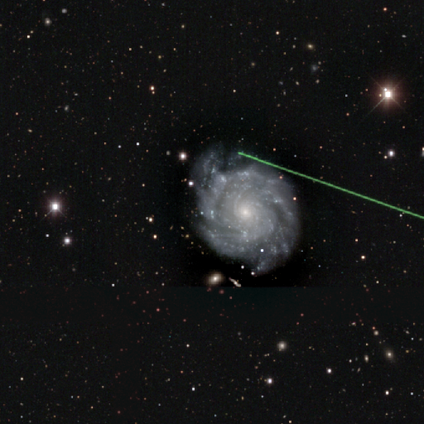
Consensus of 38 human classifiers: featured or disk 92%, smooth 8%, star or artifact 0%. Down the decision tree: edge-on disk — no (100%); bar — no (74%); spiral arms — yes (94%); spiral arm count — 3 (27%, tied with can't tell); spiral winding — tight (76%); bulge size — small (74%); merging — none (47%).